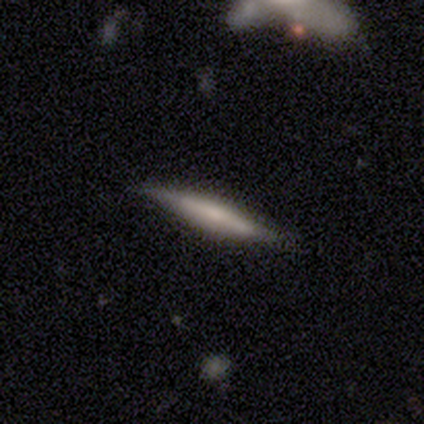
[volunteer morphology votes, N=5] Q: Smooth or featured?
A: smooth (60%); runner-up: featured or disk (40%)
Q: How rounded?
A: cigar-shaped (100%)
Q: Merging?
A: none (60%); runner-up: minor disturbance (40%)